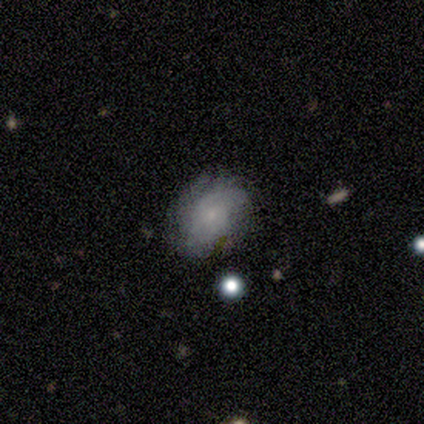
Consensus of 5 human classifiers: Overall: smooth (60%; featured or disk 40%). How rounded: in between (100%). Merging: none (80%).